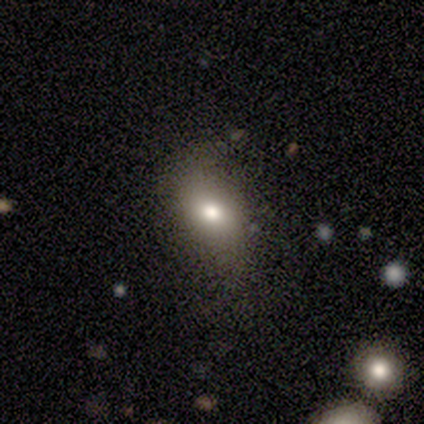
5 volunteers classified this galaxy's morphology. Overall: smooth (100%). How rounded: in between (60%; round 40%). Merging: none (60%; minor disturbance 20%).